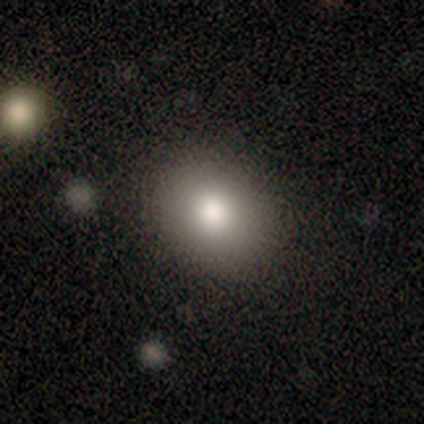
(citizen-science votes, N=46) A smooth galaxy with no disk features (83%) that is in between round and cigar-shaped (55%).

Vote fractions:
- Smooth or featured? smooth: 83% / featured or disk: 9% / star or artifact: 9%
- How rounded? in between: 55% / round: 45% / cigar-shaped: 0%
- Merging? none: 90% / minor disturbance: 5% / major disturbance: 5% / merger: 0%